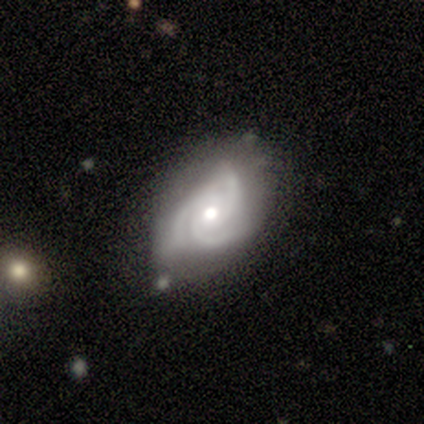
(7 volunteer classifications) Morphology: type=featured or disk (86%); edge-on=no (100%); bar=no (100%); spiral arms=yes (100%); winding=tight (50%, tied with medium); arm count=3 (83%); bulge=moderate (83%); merging=none (71%).